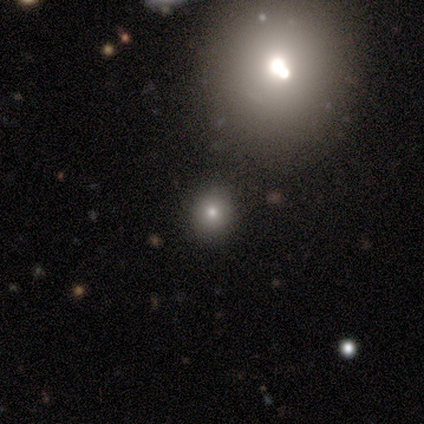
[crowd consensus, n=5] Smooth or featured?
  - featured or disk: 60% *
  - smooth: 20%
  - star or artifact: 20%
Edge-on disk?
  - no: 100% *
  - yes: 0%
Bar?
  - no: 67% *
  - strong: 33%
  - weak: 0%
Spiral arms?
  - no: 100% *
  - yes: 0%
Bulge size?
  - large: 67% *
  - moderate: 33%
  - dominant: 0%
  - small: 0%
  - none: 0%
Merging?
  - none: 75% *
  - minor disturbance: 25%
  - major disturbance: 0%
  - merger: 0%